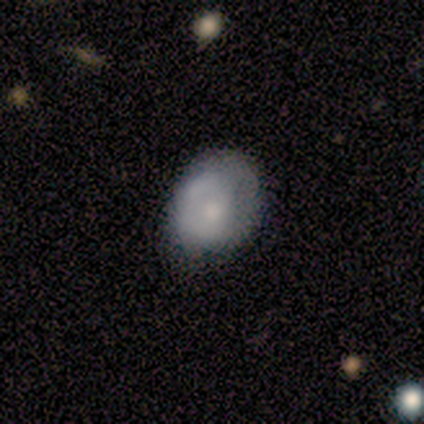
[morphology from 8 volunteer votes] A smooth galaxy with no disk features (50%) that is in between round and cigar-shaped (75%). Merging: minor disturbance (67%).